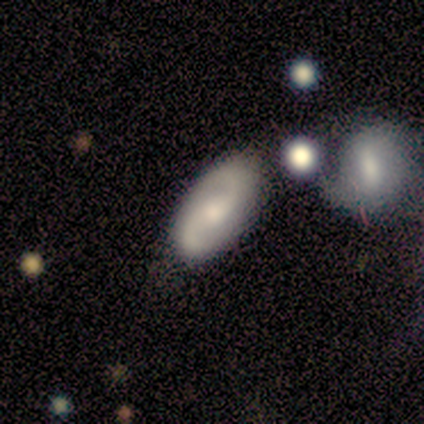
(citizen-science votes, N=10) Smooth or featured? featured or disk (80%)
Edge-on disk? no (100%)
Bar? no (75%)
Spiral arms? yes (88%)
Spiral winding? loose (71%)
Spiral arm count? 2 (100%)
Bulge size? moderate (50%, tied with small)
Merging? none (40%)